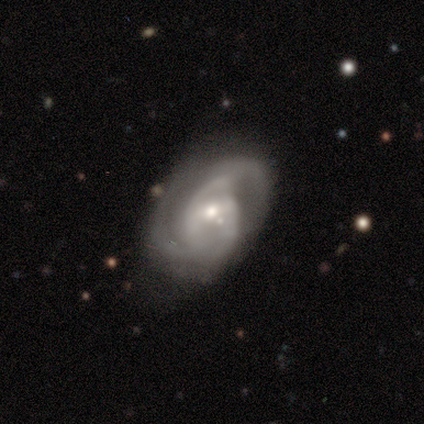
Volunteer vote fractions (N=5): A featured or disk galaxy (60%) with no bar (67%), 2 (33%, tied with 3 and 4) medium (100%) spiral arms (100%) and a small central bulge (67%).

Vote fractions:
- Smooth or featured? featured or disk: 60% / smooth: 40% / star or artifact: 0%
- Edge-on disk? no: 100% / yes: 0%
- Bar? no: 67% / weak: 33% / strong: 0%
- Spiral arms? yes: 100% / no: 0%
- Spiral winding? medium: 100% / tight: 0% / loose: 0%
- Spiral arm count? 2: 33% (tied) / 3: 33% (tied) / 4: 33% (tied) / 1: 0% / more than 4: 0% / can't tell: 0%
- Bulge size? small: 67% / moderate: 33% / dominant: 0% / large: 0% / none: 0%
- Merging? none: 80% / minor disturbance: 20% / major disturbance: 0% / merger: 0%